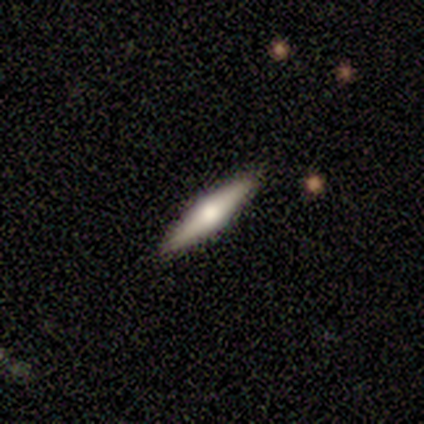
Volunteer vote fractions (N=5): featured or disk 60%, smooth 40%, star or artifact 0%. Down the decision tree: edge-on disk — yes (100%); edge-on bulge — rounded (100%); merging — none (100%).